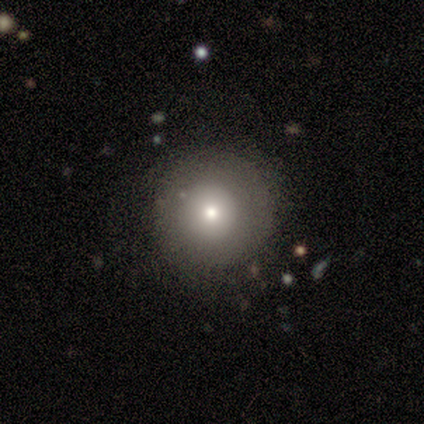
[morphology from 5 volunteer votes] smooth 100%, featured or disk 0%, star or artifact 0%. Down the decision tree: how rounded — round (100%); merging — none (80%).